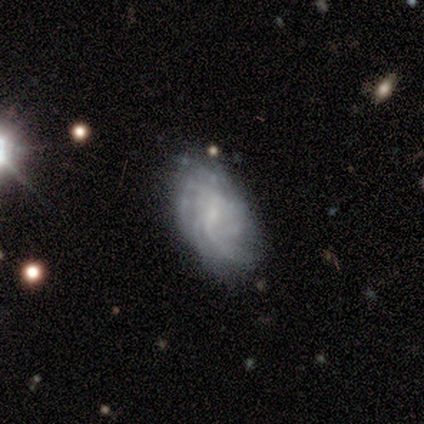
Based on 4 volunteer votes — smooth_or_featured: smooth (p=0.50) [tied with: featured or disk p=0.50]
how_rounded: in between (p=1.00)
merging: none (p=0.50) [alt: minor disturbance p=0.25]